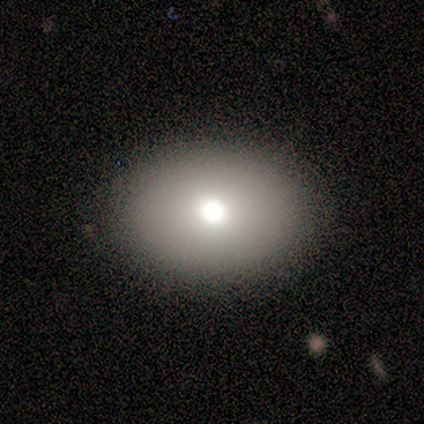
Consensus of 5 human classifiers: This appears to be a smooth galaxy with no disk features (80%) that is in between round and cigar-shaped (75%). Merging: none (80%).